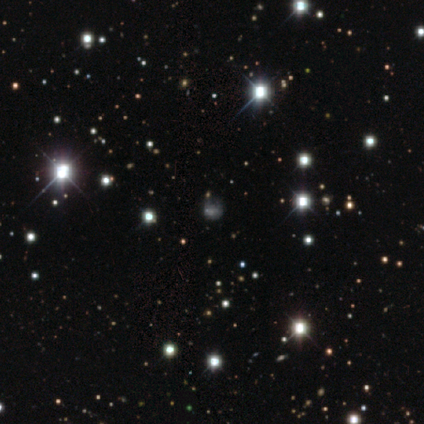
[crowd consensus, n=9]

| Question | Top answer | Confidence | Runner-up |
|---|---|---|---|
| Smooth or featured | star or artifact | 67% | smooth (33%) |